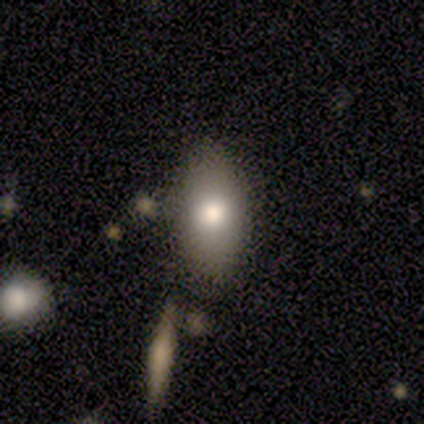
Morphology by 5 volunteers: Volunteers were most divided on "smooth or featured": smooth: 60%, featured or disk: 20%, star or artifact: 20%. More confident: how rounded — in between (100%); merging — none (75%).